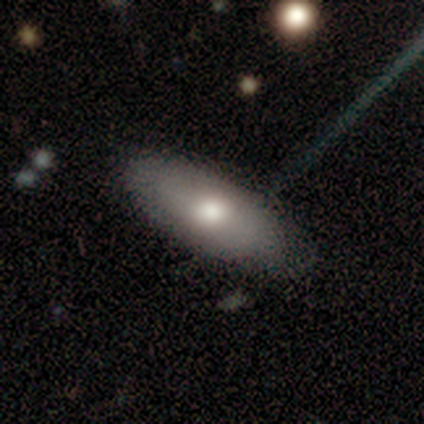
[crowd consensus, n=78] Morphology: type=smooth (74%); roundness=in between (95%); merging=none (42%).